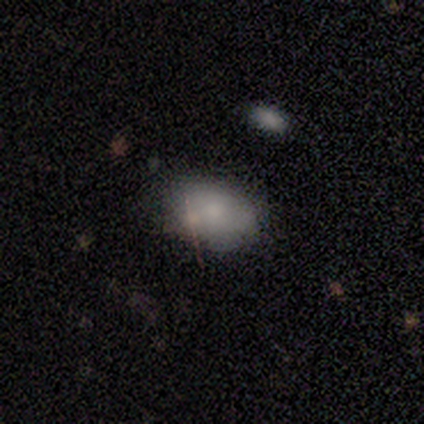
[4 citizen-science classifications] Overall: smooth (100%). How rounded: in between (75%). Merging: none (75%).